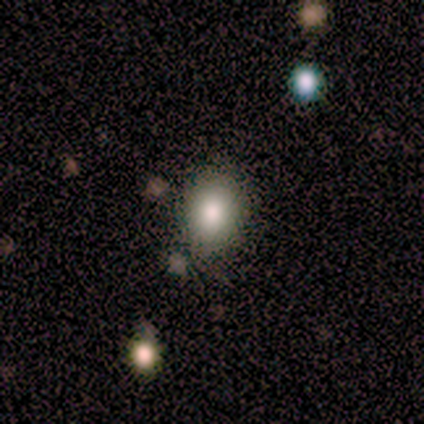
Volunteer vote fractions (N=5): Overall: smooth (80%). How rounded: round (50%, tied with in between). Merging: none (80%).